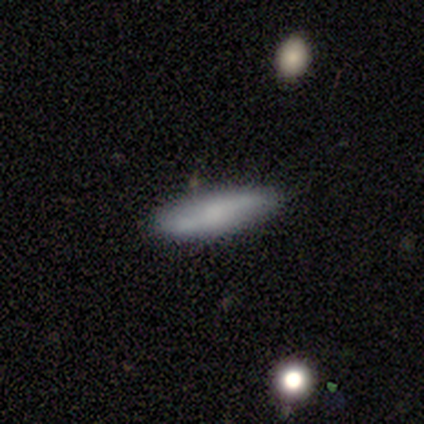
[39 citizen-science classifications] smooth 64%, featured or disk 31%, star or artifact 5%. Down the decision tree: how rounded — cigar-shaped (72%); merging — none (78%).